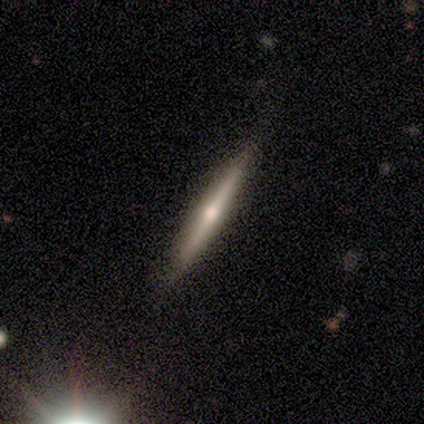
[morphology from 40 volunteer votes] A featured or disk galaxy (78%) viewed edge-on (100%) with a rounded central bulge (84%). Merging: none (54%).